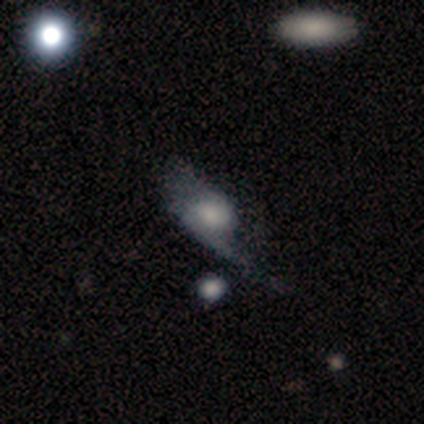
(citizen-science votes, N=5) smooth-or-featured: featured or disk: 80% | star or artifact: 20% | smooth: 0%
  disk-edge-on: no: 100% | yes: 0%
    bar: no: 75% | weak: 25% | strong: 0%
    has-spiral-arms: yes: 75% | no: 25%
      spiral-winding: medium: 67% | loose: 33% | tight: 0%
      spiral-arm-count: 1: 67% | 2: 33% | 3: 0% | 4: 0% | more than 4: 0% | can't tell: 0%
    bulge-size: moderate: 50% | small: 25% | none: 25% | dominant: 0% | large: 0%
  merging: none: 50% (tied) | minor disturbance: 50% (tied) | major disturbance: 0% | merger: 0%